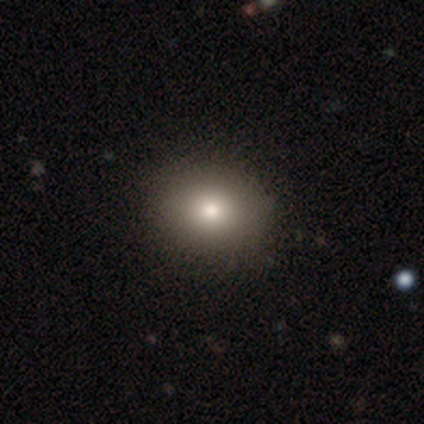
Smooth or featured? 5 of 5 (100%) said smooth. How rounded? 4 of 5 (80%) said round. Merging? 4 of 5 (80%) said none.